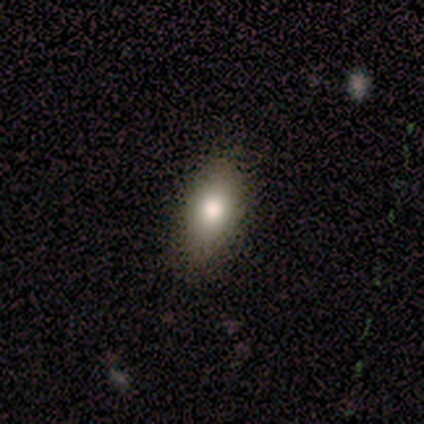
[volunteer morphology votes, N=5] smooth 60%, featured or disk 20%, star or artifact 20%. Down the decision tree: how rounded — in between (100%); merging — none (75%).